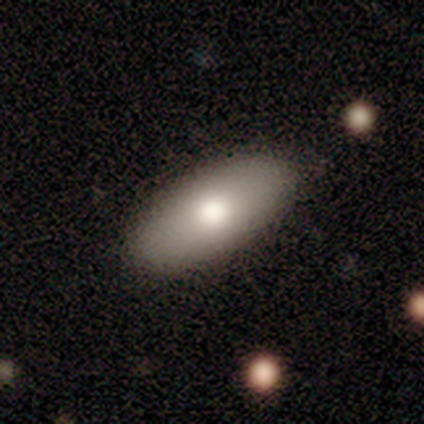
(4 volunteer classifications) Smooth or featured: smooth — 75% (featured or disk — 25%)
How rounded: in between — 100%
Merging: none — 100%